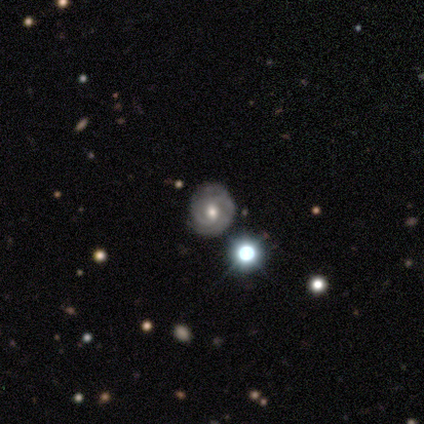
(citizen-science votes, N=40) A featured or disk galaxy (88%) with no bar (68%), 2 (39%) tight (73%) spiral arms (97%) and a moderate central bulge (79%). Merging: none (68%).